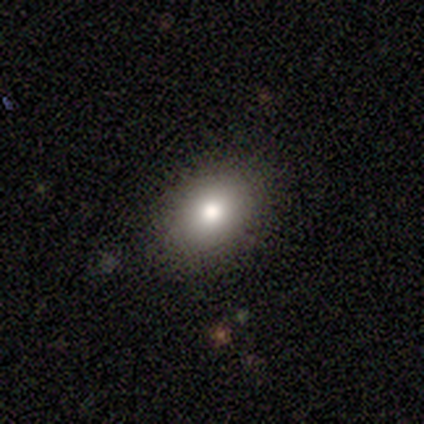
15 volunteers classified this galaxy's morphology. Smooth or featured? smooth (87%)
How rounded? in between (92%)
Merging? none (86%)